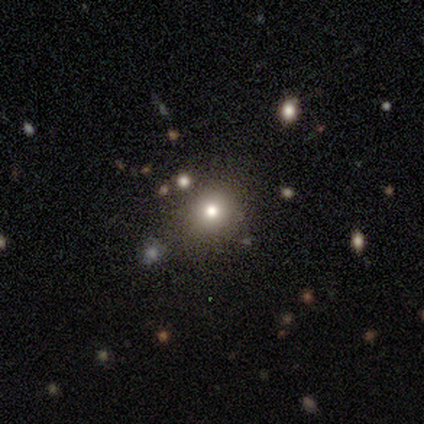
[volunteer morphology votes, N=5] This appears to be a smooth galaxy with no disk features (60%) that is in between round and cigar-shaped (67%). Merging: none (100%).